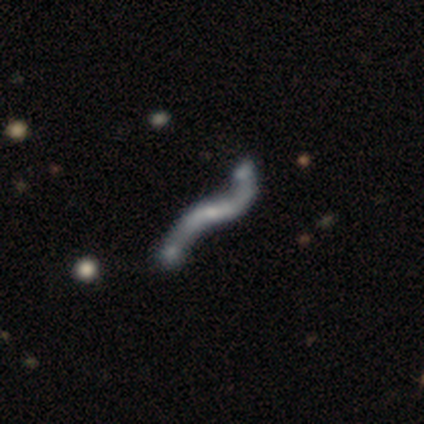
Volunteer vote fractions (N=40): A featured or disk galaxy (88%) with a weak bar (44%), 2 (96%) loose (96%) spiral arms (78%) and a small central bulge (44%). Merging: none (44%).